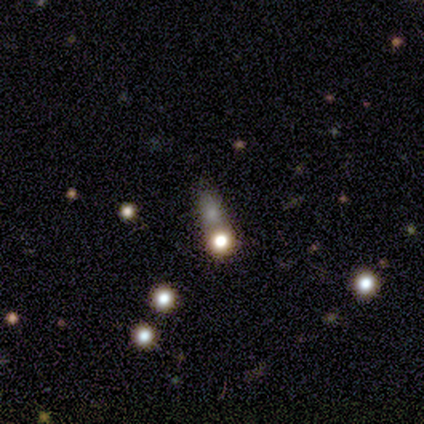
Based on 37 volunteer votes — This appears to be a smooth galaxy with no disk features (41%) that is round (67%). Merging: merger (43%).